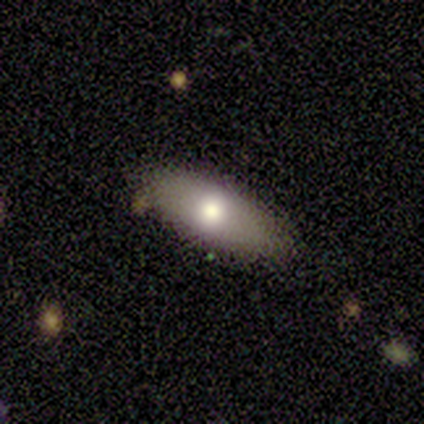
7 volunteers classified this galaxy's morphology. Smooth or featured?
  - smooth: 100% *
  - featured or disk: 0%
  - star or artifact: 0%
How rounded?
  - in between: 100% *
  - round: 0%
  - cigar-shaped: 0%
Merging?
  - none: 100% *
  - minor disturbance: 0%
  - major disturbance: 0%
  - merger: 0%